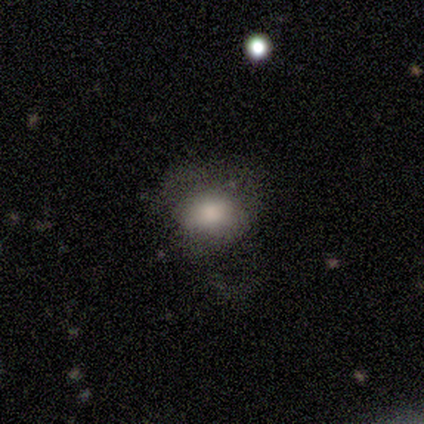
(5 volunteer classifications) This is clearly a smooth galaxy (80%). How rounded: possibly round (50%, tied with in between). Merging: possibly major disturbance (50%).